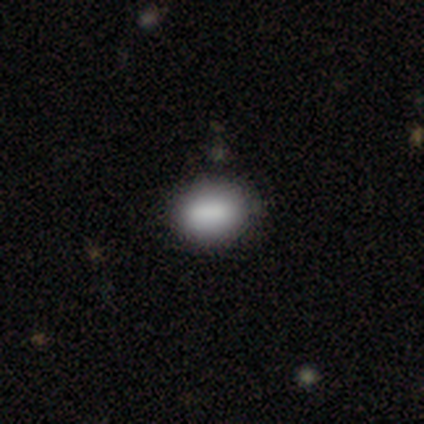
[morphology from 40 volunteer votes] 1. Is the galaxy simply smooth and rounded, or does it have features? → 88% smooth, 10% featured or disk, 2% star or artifact.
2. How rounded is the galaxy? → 71% in between, 26% round, 3% cigar-shaped.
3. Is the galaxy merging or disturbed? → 90% none, 8% minor disturbance, 3% merger, 0% major disturbance.